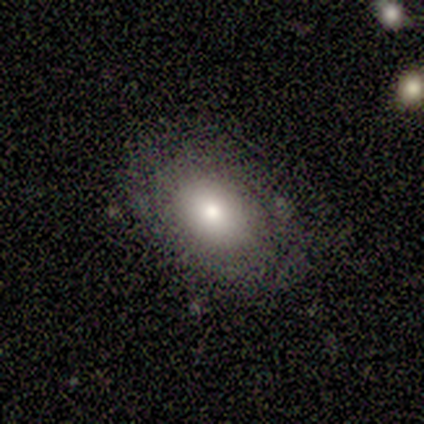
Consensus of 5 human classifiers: Overall: smooth (100%). How rounded: in between (100%). Merging: none (80%).